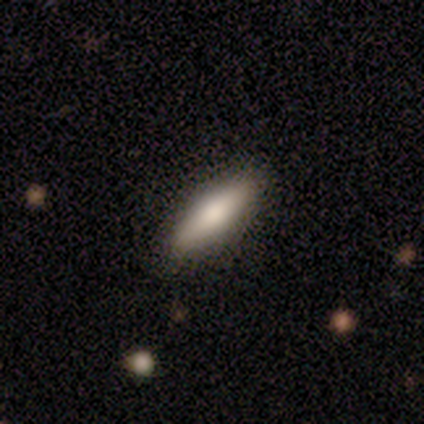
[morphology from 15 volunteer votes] smooth 67%, featured or disk 27%, star or artifact 7%. Down the decision tree: how rounded — in between (60%); merging — none (79%).